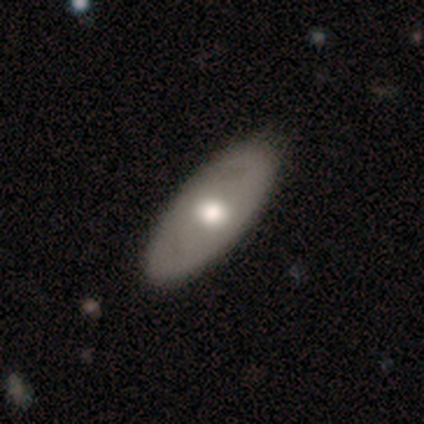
smooth_or_featured: smooth (p=0.40) [tied with: featured or disk p=0.40]
how_rounded: in between (p=1.00)
merging: none (p=1.00)